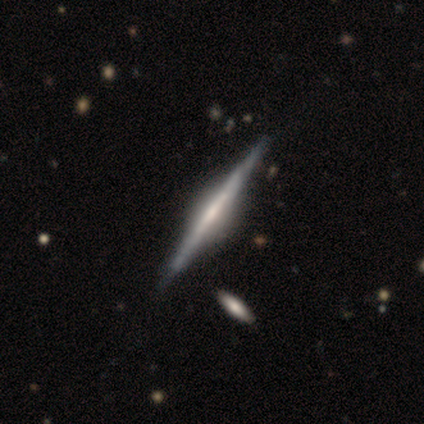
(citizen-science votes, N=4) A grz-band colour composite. It shows a featured or disk galaxy (75%) viewed edge-on (100%) with a boxy central bulge (67%). Merging: none (100%).